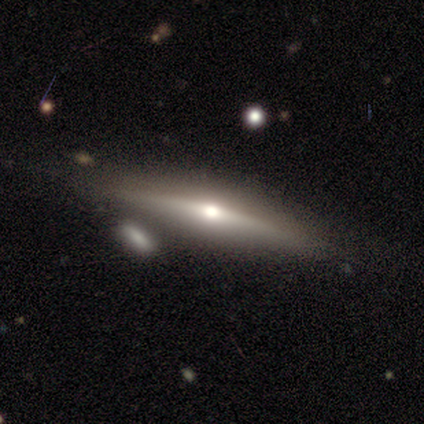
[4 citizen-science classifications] This is clearly a featured or disk galaxy (100%). It is clearly viewed edge-on (100%). Edge-on bulge: possibly none (50%, tied with rounded). Merging: likely none (75%).